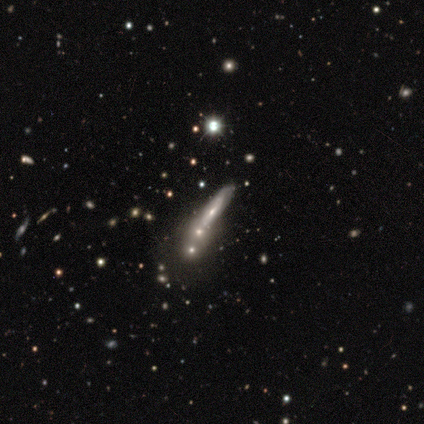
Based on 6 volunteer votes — Overall: featured or disk (67%; smooth 33%). Edge-on disk: yes (50%, tied with no). Edge-on bulge: boxy (50%, tied with rounded). Merging: merger (67%; none 33%).